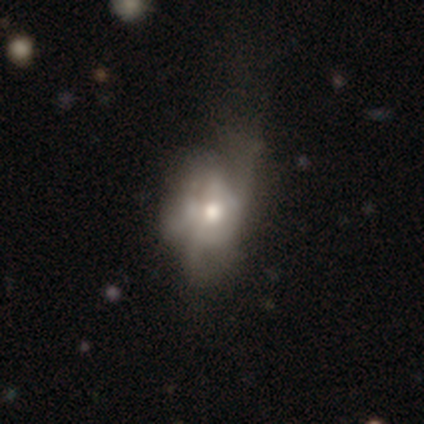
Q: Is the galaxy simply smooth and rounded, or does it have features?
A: featured or disk — 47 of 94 (50%).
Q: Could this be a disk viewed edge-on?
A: no — 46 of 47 (98%).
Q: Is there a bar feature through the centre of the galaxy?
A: no — 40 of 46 (87%).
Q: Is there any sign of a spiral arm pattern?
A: no — 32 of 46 (70%).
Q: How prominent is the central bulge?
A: moderate — 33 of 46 (72%).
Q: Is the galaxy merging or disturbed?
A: major disturbance — 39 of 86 (45%).